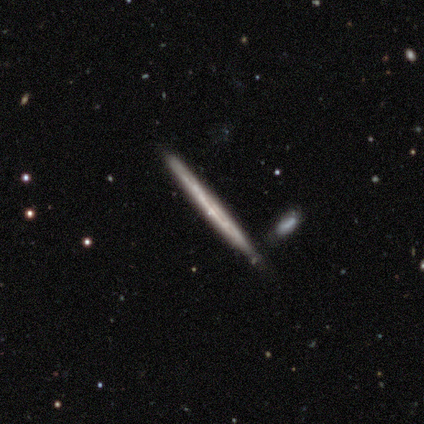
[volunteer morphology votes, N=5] A featured or disk galaxy (100%) viewed edge-on (100%) with no central bulge (100%). Merging: none (80%).